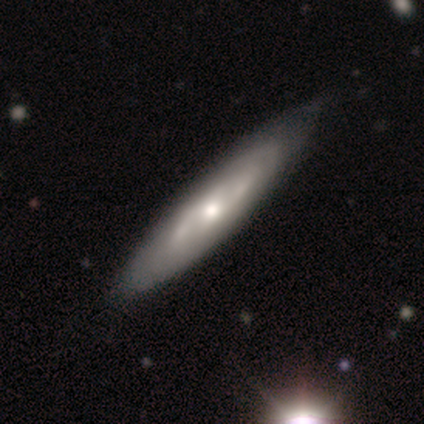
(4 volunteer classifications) smooth-or-featured: featured or disk: 100% | smooth: 0% | star or artifact: 0%
  disk-edge-on: yes: 50% (tied) | no: 50% (tied)
    edge-on-bulge: boxy: 50% (tied) | none: 50% (tied) | rounded: 0%
  merging: none: 75% | minor disturbance: 25% | major disturbance: 0% | merger: 0%